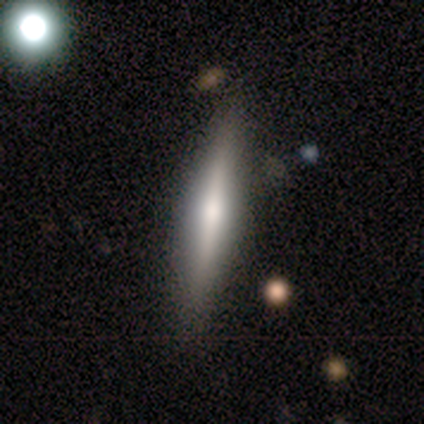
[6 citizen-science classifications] smooth-or-featured: featured or disk: 67% | smooth: 33% | star or artifact: 0%
  disk-edge-on: yes: 100% | no: 0%
    edge-on-bulge: rounded: 75% | none: 25% | boxy: 0%
  merging: none: 100% | minor disturbance: 0% | major disturbance: 0% | merger: 0%